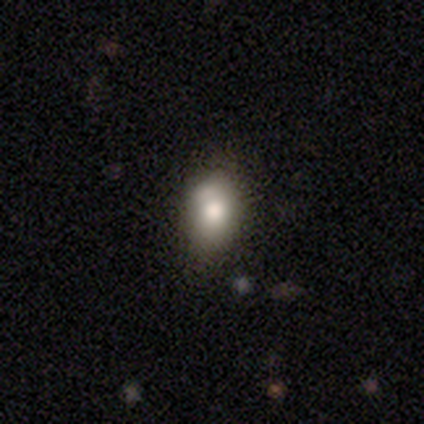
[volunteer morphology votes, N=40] smooth_or_featured: smooth (p=0.82) [alt: featured or disk p=0.15]
how_rounded: in between (p=0.88) [alt: round p=0.12]
merging: none (p=0.46) [alt: minor disturbance p=0.15]